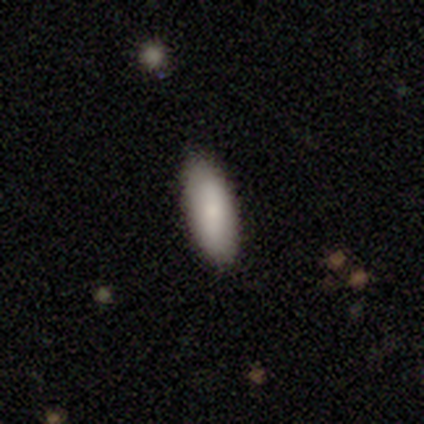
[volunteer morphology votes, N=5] A smooth galaxy with no disk features (100%) that is in between round and cigar-shaped (80%).

Vote fractions:
- Smooth or featured? smooth: 100% / featured or disk: 0% / star or artifact: 0%
- How rounded? in between: 80% / round: 20% / cigar-shaped: 0%
- Merging? none: 80% / minor disturbance: 20% / major disturbance: 0% / merger: 0%